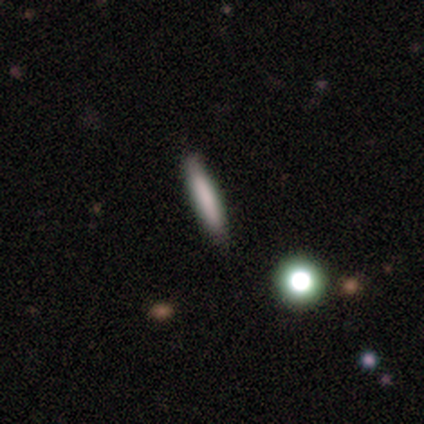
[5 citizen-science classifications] A smooth galaxy with no disk features (80%) that is cigar-shaped (100%). Merging: none (100%).